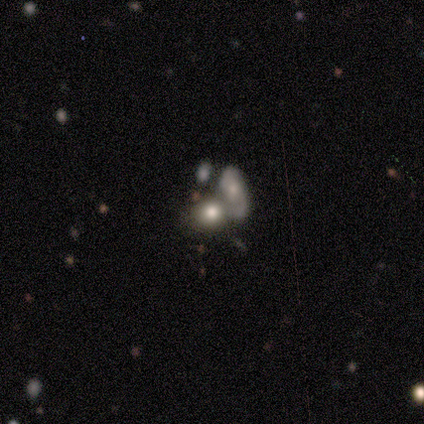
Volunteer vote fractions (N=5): This appears to be a smooth galaxy with no disk features (60%) that is in between round and cigar-shaped (67%). Merging: merger (67%).